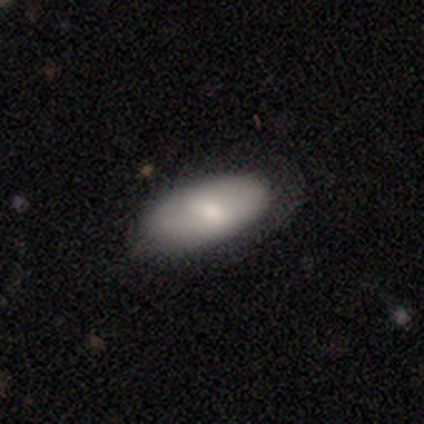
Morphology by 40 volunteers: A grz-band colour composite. It shows a smooth galaxy with no disk features (80%) that is in between round and cigar-shaped (91%). Merging: none (75%).